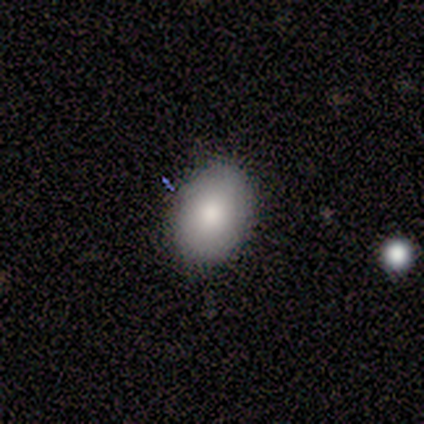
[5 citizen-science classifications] Morphology: type=smooth (100%); roundness=in between (100%); merging=none (100%).